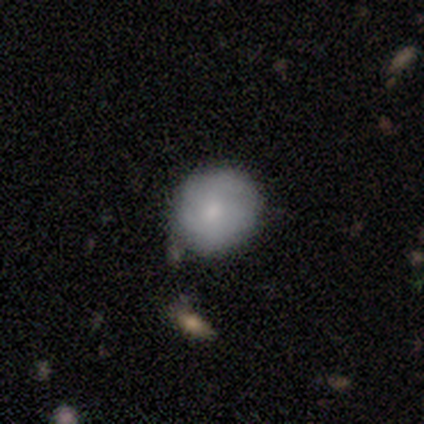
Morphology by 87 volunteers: Smooth or featured? smooth (68%)
How rounded? round (88%)
Merging? none (71%)